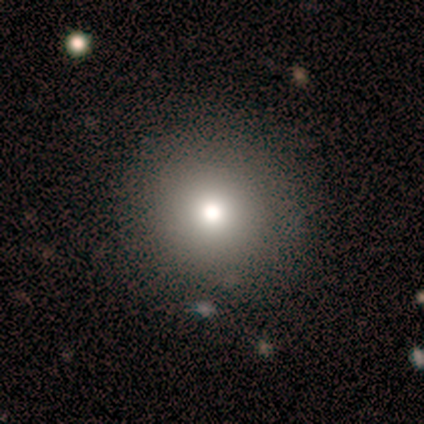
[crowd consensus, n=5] Smooth or featured: smooth — 100%
How rounded: round — 80% (in between — 20%)
Merging: none — 80% (major disturbance — 20%)